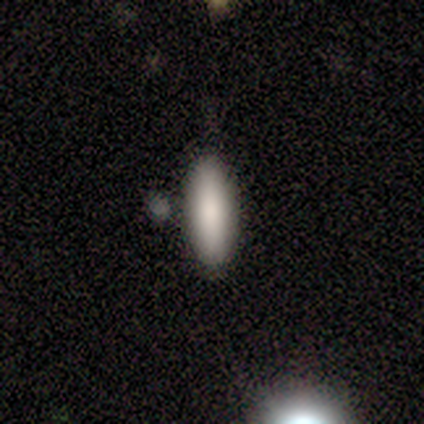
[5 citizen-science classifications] Smooth or featured: smooth — 80% (featured or disk — 20%)
How rounded: in between — 50% (round — 25%)
Merging: none — 60% (merger — 40%)